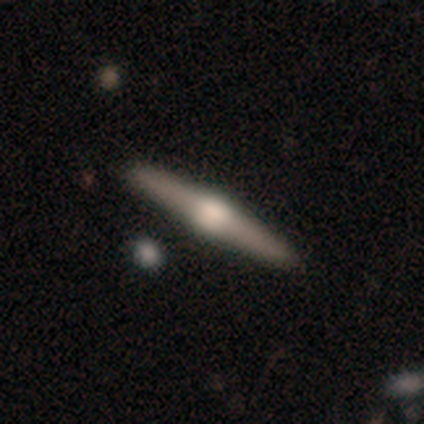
Q: Smooth or featured?
A: featured or disk (90%); runner-up: smooth (8%)
Q: Edge-on disk?
A: yes (100%)
Q: Edge-on bulge?
A: rounded (89%); runner-up: boxy (11%)
Q: Merging?
A: none (62%); runner-up: merger (8%)